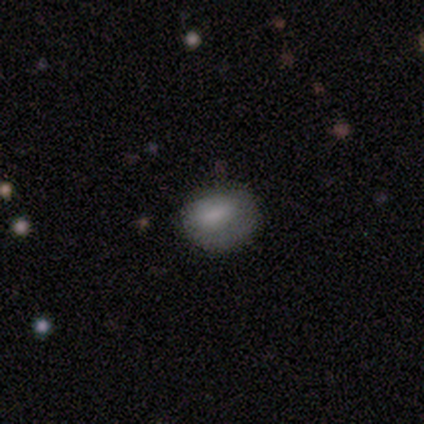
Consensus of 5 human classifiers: Smooth or featured? smooth (80%)
How rounded? round (75%)
Merging? none (100%)